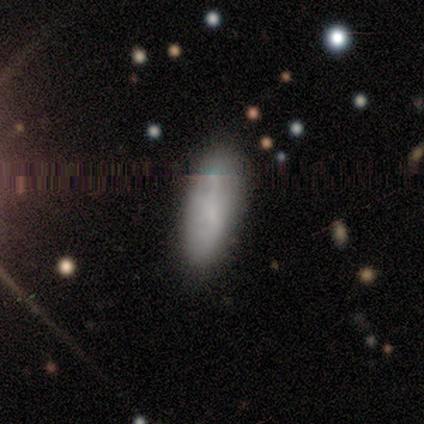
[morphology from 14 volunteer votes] Volunteers were most divided on "merging": none: 64%, minor disturbance: 29%, merger: 7%, major disturbance: 0%. More confident: how rounded — in between (82%); smooth or featured — smooth (79%).